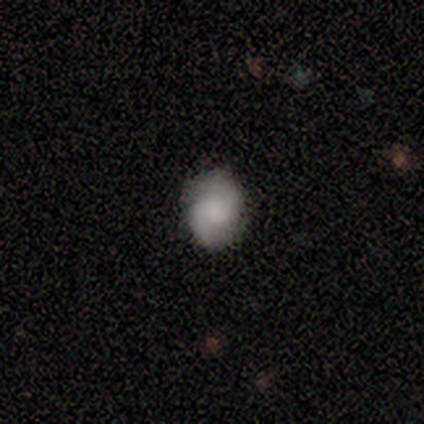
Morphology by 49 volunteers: Q: Smooth or featured?
A: smooth (51%); runner-up: featured or disk (45%)
Q: How rounded?
A: in between (60%); runner-up: round (40%)
Q: Merging?
A: none (89%); runner-up: minor disturbance (11%)